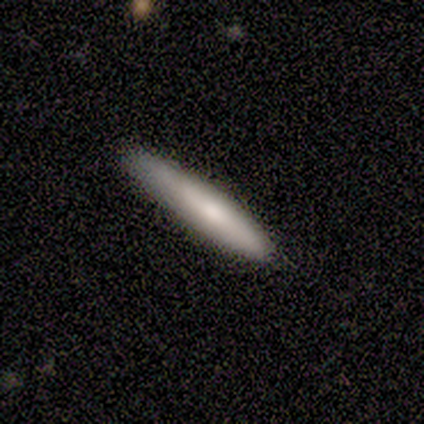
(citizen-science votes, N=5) Smooth or featured? 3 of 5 (60%) said smooth. How rounded? 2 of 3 (67%) said cigar-shaped. Merging? 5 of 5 (100%) said none.